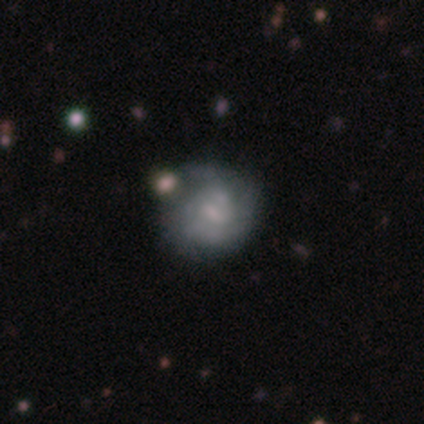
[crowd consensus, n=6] Smooth or featured?
  - featured or disk: 83% *
  - smooth: 17%
  - star or artifact: 0%
Edge-on disk?
  - no: 100% *
  - yes: 0%
Bar?
  - no: 100% *
  - strong: 0%
  - weak: 0%
Spiral arms?
  - yes: 60% *
  - no: 40%
Spiral winding?
  - tight: 67% *
  - medium: 33%
  - loose: 0%
Spiral arm count?
  - can't tell: 100% *
  - 1: 0%
  - 2: 0%
  - 3: 0%
  - 4: 0%
  - more than 4: 0%
Bulge size?
  - moderate: 80% *
  - small: 20%
  - dominant: 0%
  - large: 0%
  - none: 0%
Merging?
  - none: 50% *
  - minor disturbance: 33%
  - major disturbance: 17%
  - merger: 0%